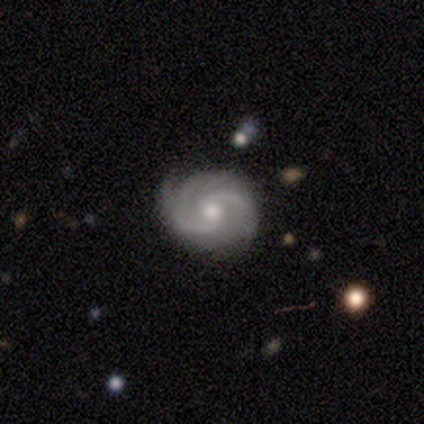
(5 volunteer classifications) Smooth or featured: featured or disk — 100%
Edge-on disk: no — 100%
Bar: no — 80% (weak — 20%)
Spiral arms: yes — 100%
Spiral winding: medium — 80% (loose — 20%)
Spiral arm count: 2 — 100%
Bulge size: moderate — 60% (small — 40%)
Merging: none — 100%